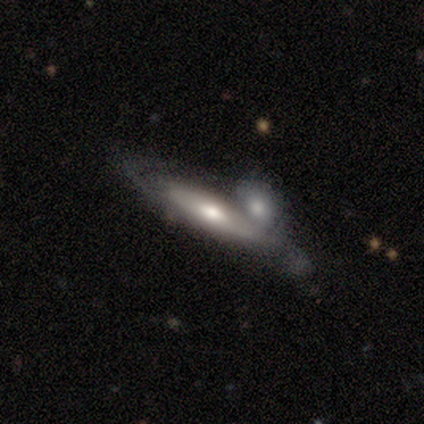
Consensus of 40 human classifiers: Smooth or featured? featured or disk (70%)
Edge-on disk? yes (54%)
Edge-on bulge? rounded (93%)
Merging? none (45%)